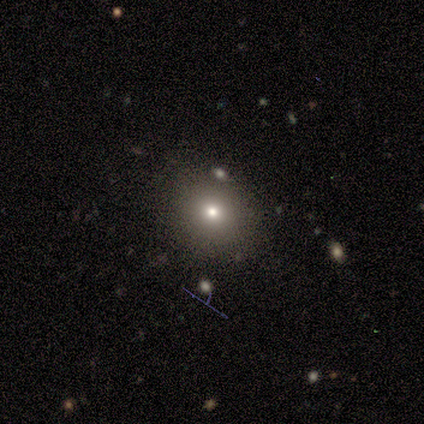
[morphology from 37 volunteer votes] This appears to be a smooth galaxy with no disk features (62%) that is round (78%). Merging: none (84%).